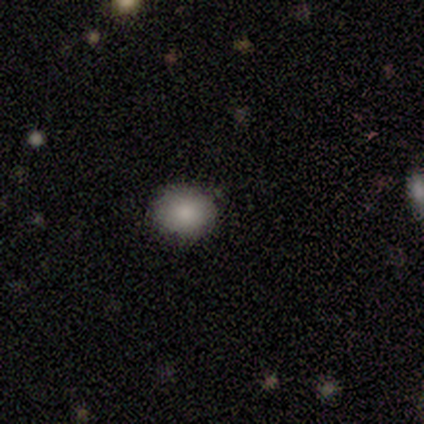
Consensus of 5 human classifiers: smooth-or-featured: smooth: 80% | star or artifact: 20% | featured or disk: 0%
  how-rounded: round: 75% | in between: 25% | cigar-shaped: 0%
  merging: none: 100% | minor disturbance: 0% | major disturbance: 0% | merger: 0%